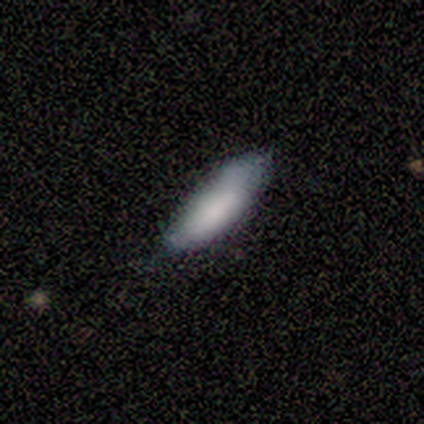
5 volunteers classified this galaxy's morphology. A smooth galaxy with no disk features (80%) that is in between round and cigar-shaped (50%, tied with cigar-shaped).

Vote fractions:
- Smooth or featured? smooth: 80% / star or artifact: 20% / featured or disk: 0%
- How rounded? in between: 50% (tied) / cigar-shaped: 50% (tied) / round: 0%
- Merging? minor disturbance: 75% / none: 25% / major disturbance: 0% / merger: 0%